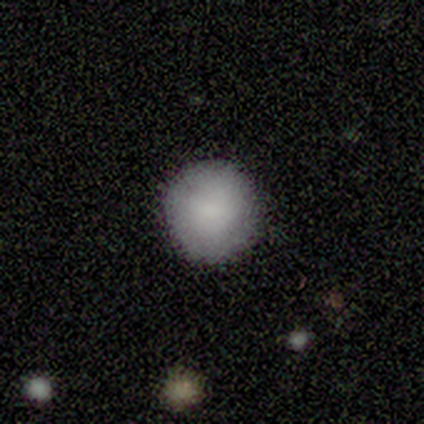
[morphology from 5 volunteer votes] Smooth or featured? smooth (80%)
How rounded? round (100%)
Merging? none (100%)